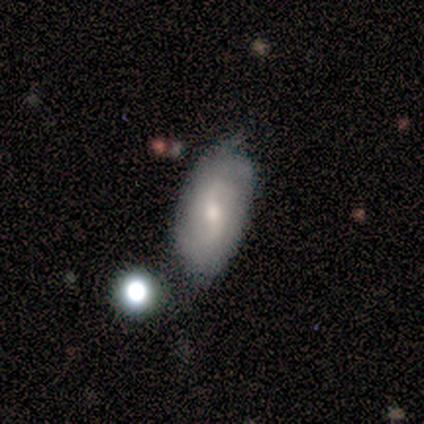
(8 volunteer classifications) A smooth galaxy with no disk features (50%, tied with featured or disk) that is in between round and cigar-shaped (100%). Merging: none (62%).